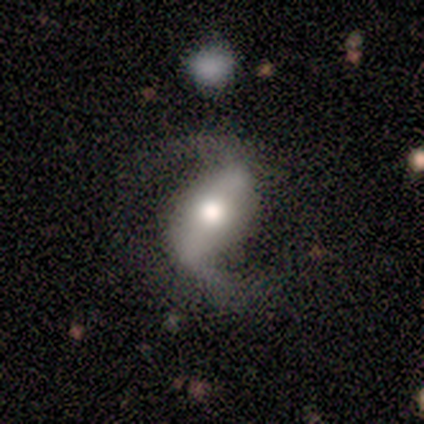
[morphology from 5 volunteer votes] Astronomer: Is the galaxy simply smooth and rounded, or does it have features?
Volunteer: featured or disk — 100%.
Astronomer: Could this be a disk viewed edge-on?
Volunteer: no — 100%.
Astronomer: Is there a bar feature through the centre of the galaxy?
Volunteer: strong — 40%, tied with weak at 40%.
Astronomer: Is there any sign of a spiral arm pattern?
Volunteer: yes — 100%.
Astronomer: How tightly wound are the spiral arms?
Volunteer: loose — 60% (runner-up: medium, 40%).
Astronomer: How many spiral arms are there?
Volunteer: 2 — 100%.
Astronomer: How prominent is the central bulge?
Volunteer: moderate — 100%.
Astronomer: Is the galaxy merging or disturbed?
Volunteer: none — 100%.